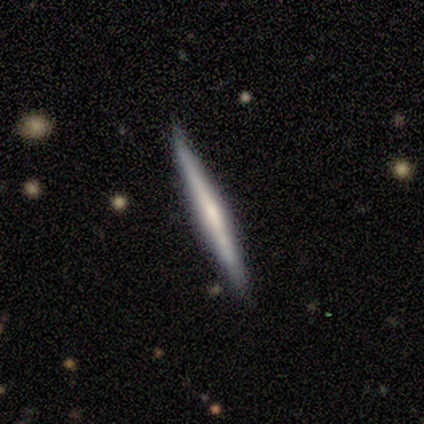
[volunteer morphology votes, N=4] Smooth or featured? 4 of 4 (100%) said featured or disk. Edge-on disk? 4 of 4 (100%) said yes. Edge-on bulge? 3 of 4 (75%) said none. Merging? 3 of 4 (75%) said none.